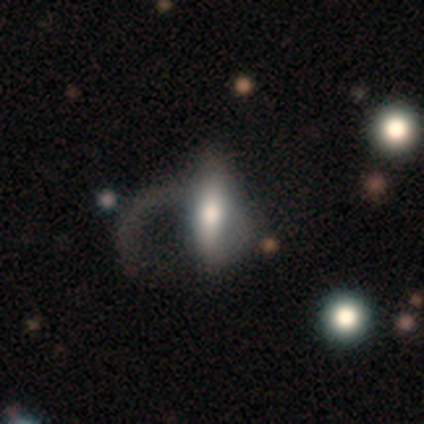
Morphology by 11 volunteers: A smooth galaxy with no disk features (73%) that is in between round and cigar-shaped (62%).

Vote fractions:
- Smooth or featured? smooth: 73% / featured or disk: 27% / star or artifact: 0%
- How rounded? in between: 62% / cigar-shaped: 38% / round: 0%
- Merging? major disturbance: 73% / none: 18% / merger: 9% / minor disturbance: 0%